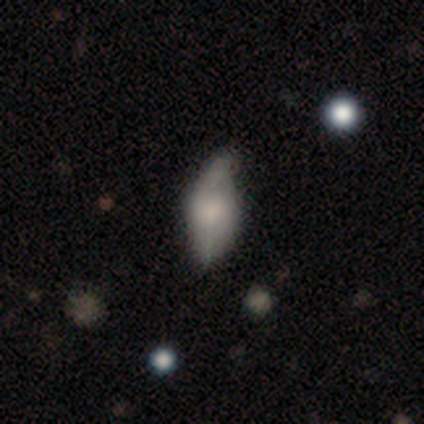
A smooth galaxy with no disk features (60%) that is in between round and cigar-shaped (67%).

Vote fractions:
- Smooth or featured? smooth: 60% / featured or disk: 40% / star or artifact: 0%
- How rounded? in between: 67% / cigar-shaped: 33% / round: 0%
- Merging? minor disturbance: 60% / major disturbance: 40% / none: 0% / merger: 0%